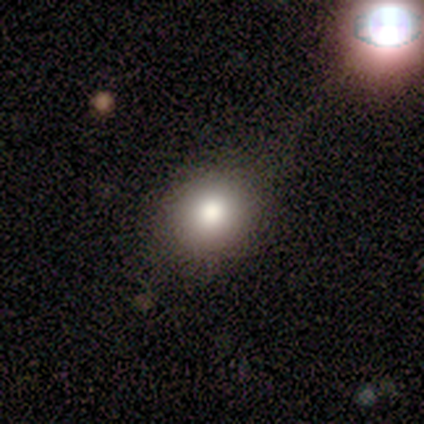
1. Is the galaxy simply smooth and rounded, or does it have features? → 60% smooth, 20% featured or disk, 20% star or artifact.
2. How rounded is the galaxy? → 50% round (tied), 50% in between (tied), 0% cigar-shaped.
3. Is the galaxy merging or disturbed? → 50% none, 25% minor disturbance, 12% major disturbance, 12% merger.